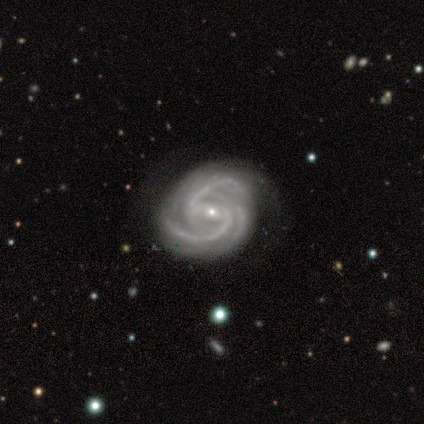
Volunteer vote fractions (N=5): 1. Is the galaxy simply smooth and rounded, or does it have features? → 100% featured or disk, 0% smooth, 0% star or artifact.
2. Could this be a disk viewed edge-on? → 100% no, 0% yes.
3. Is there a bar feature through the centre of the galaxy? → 60% no, 40% strong, 0% weak.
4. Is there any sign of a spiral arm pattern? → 100% yes, 0% no.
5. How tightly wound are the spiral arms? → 80% tight, 20% medium, 0% loose.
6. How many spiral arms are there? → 80% 3, 20% 4, 0% 1, 0% 2, 0% more than 4, 0% can't tell.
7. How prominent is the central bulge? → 60% small, 40% moderate, 0% dominant, 0% large, 0% none.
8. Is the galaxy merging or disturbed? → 100% none, 0% minor disturbance, 0% major disturbance, 0% merger.